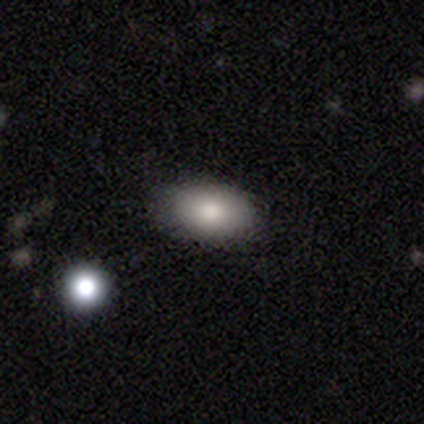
Volunteers were most divided on "smooth or featured": smooth: 87%, featured or disk: 8%, star or artifact: 5%. More confident: how rounded — in between (100%); merging — none (89%).